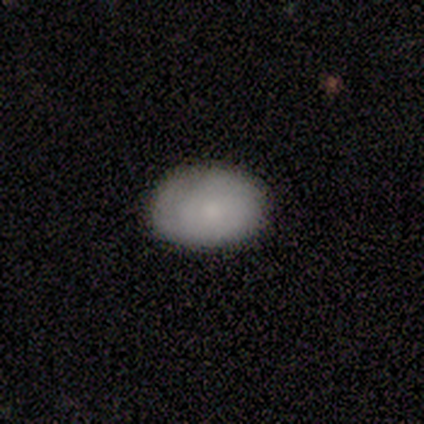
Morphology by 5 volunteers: type=smooth (80%); roundness=in between (100%); merging=none (80%).